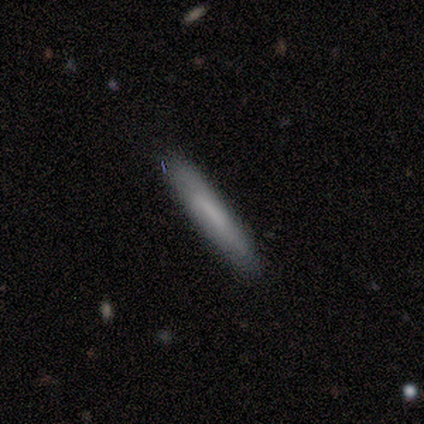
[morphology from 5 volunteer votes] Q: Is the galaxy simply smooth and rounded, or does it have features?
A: smooth — 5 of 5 (100%).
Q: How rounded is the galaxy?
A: cigar-shaped — 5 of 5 (100%).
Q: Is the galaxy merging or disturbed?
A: none — 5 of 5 (100%).